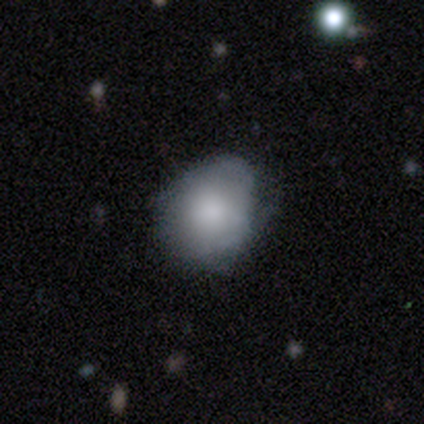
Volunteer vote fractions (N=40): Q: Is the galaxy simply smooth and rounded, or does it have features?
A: smooth — 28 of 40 (70%).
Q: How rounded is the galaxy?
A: round — 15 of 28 (54%).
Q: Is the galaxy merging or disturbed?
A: none — 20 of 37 (54%).